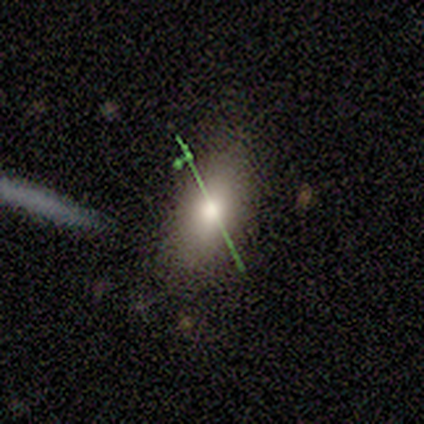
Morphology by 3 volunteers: Smooth or featured? 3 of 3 (100%) said smooth. How rounded? 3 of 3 (100%) said in between. Merging? 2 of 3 (67%) said none.